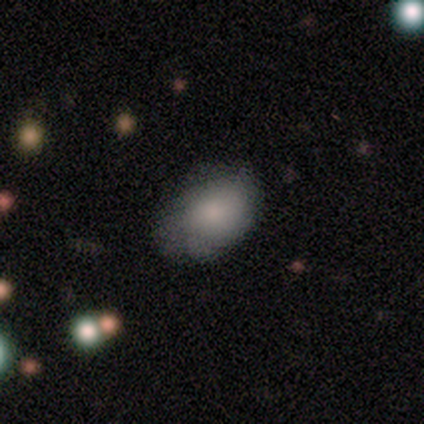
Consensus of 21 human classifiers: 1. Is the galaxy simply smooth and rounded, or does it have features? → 81% smooth, 19% featured or disk, 0% star or artifact.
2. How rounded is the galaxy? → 65% in between, 35% round, 0% cigar-shaped.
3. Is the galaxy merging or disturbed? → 76% none, 14% minor disturbance, 5% major disturbance, 5% merger.